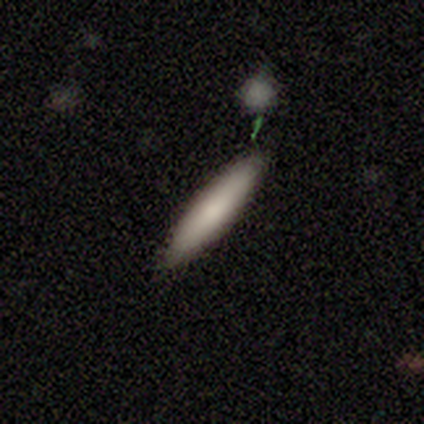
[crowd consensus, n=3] Smooth or featured?
  - smooth: 100% *
  - featured or disk: 0%
  - star or artifact: 0%
How rounded?
  - cigar-shaped: 100% *
  - round: 0%
  - in between: 0%
Merging?
  - none: 100% *
  - minor disturbance: 0%
  - major disturbance: 0%
  - merger: 0%